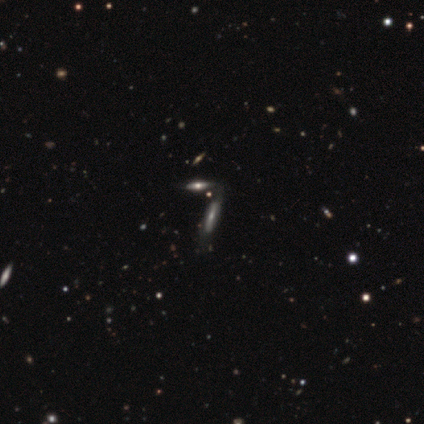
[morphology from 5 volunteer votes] Smooth or featured? 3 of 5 (60%) said featured or disk. Edge-on disk? 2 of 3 (67%) said yes. Edge-on bulge? 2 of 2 (100%) said rounded. Merging? 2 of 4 (50%, tied with merger) said none.